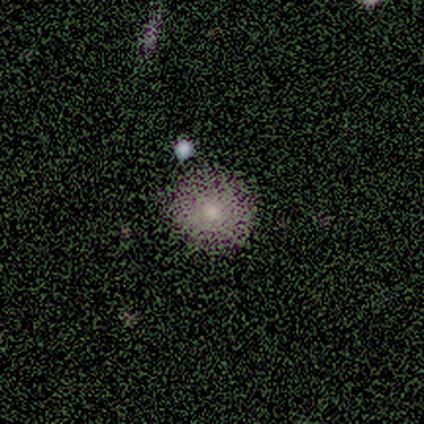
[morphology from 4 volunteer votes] This appears to be a smooth galaxy with no disk features (50%) that is round (100%). Merging: none (100%).